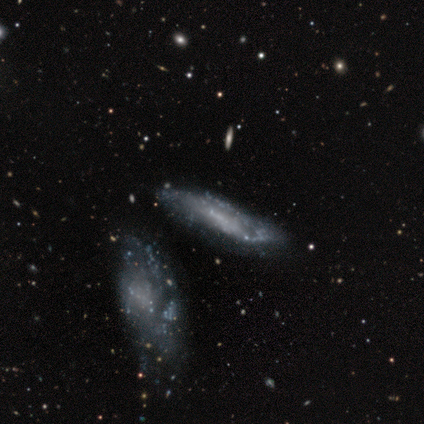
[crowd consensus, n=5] This appears to be a featured or disk galaxy (80%) with no bar (50%), 2 (67%) medium (67%) spiral arms (75%) and no central bulge (75%). Merging: none (40%).